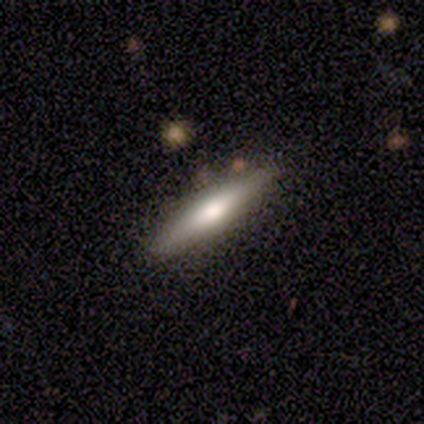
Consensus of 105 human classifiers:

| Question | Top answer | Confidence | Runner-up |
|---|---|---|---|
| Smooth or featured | smooth | 52% | featured or disk (43%) |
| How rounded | cigar-shaped | 82% | in between (15%) |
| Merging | none | 87% | minor disturbance (10%) |